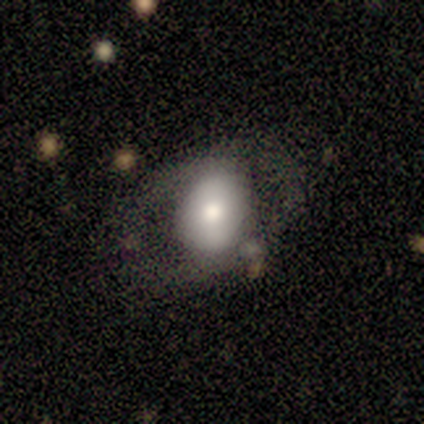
Morphology: type=smooth (50%); roundness=in between (100%); merging=none (67%).